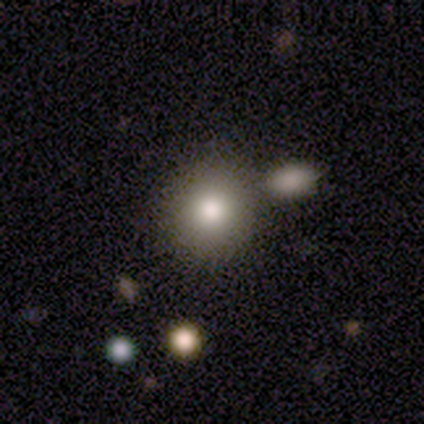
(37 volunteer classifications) smooth_or_featured: smooth (p=0.73) [alt: featured or disk p=0.14]
how_rounded: round (p=0.81) [alt: in between p=0.19]
merging: none (p=0.66) [alt: minor disturbance p=0.19]